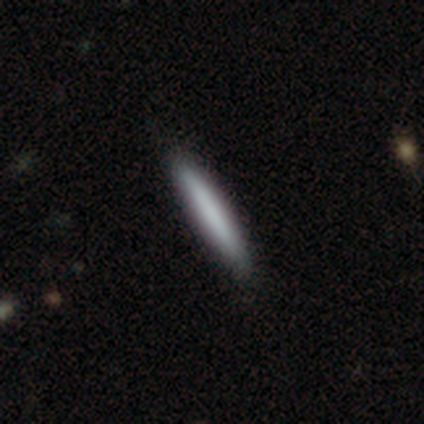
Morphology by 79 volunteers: Smooth or featured? smooth (81%)
How rounded? cigar-shaped (95%)
Merging? none (89%)